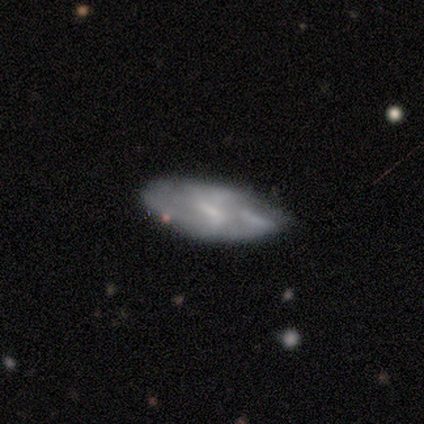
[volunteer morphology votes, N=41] smooth_or_featured: featured or disk (p=0.61) [alt: smooth p=0.32]
disk_edge_on: no (p=0.92) [alt: yes p=0.08]
bar: no (p=0.52) [alt: weak p=0.43]
has_spiral_arms: yes (p=0.78) [alt: no p=0.22]
spiral_winding: medium (p=0.44) [alt: loose p=0.39]
spiral_arm_count: can't tell (p=0.56) [alt: 2 p=0.22]
bulge_size: small (p=0.83) [alt: none p=0.13]
merging: none (p=0.61) [alt: minor disturbance p=0.29]